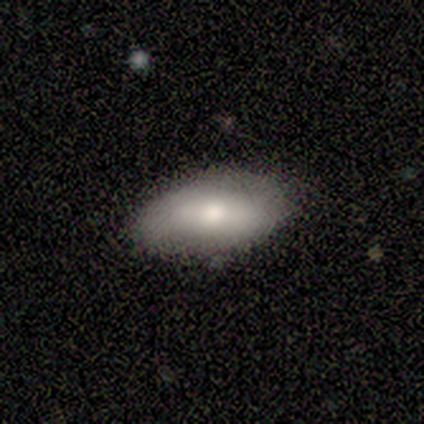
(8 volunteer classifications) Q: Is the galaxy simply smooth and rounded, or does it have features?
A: smooth — 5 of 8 (62%).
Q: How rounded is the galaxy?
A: in between — 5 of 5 (100%).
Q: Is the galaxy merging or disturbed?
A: none — 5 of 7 (71%).